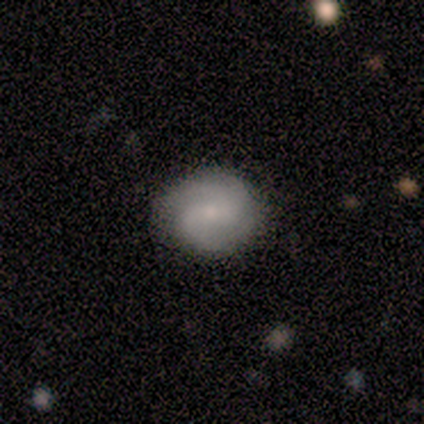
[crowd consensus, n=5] featured or disk 60%, smooth 40%, star or artifact 0%. Down the decision tree: edge-on disk — no (100%); bar — no (67%); spiral arms — yes (67%); spiral arm count — 3 (50%, tied with can't tell); spiral winding — tight (50%, tied with loose); bulge size — moderate (67%); merging — none (80%).